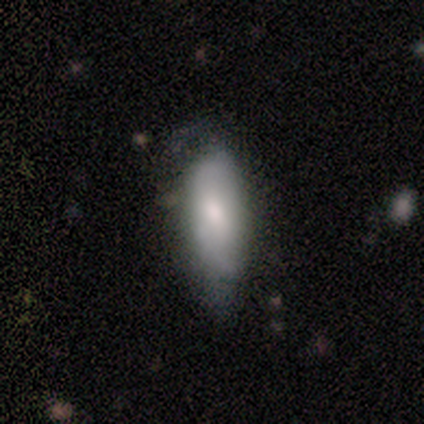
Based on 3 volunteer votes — smooth-or-featured: smooth: 67% | featured or disk: 33% | star or artifact: 0%
  how-rounded: in between: 100% | round: 0% | cigar-shaped: 0%
  merging: none: 33% (tied) | minor disturbance: 33% (tied) | major disturbance: 33% (tied) | merger: 0%